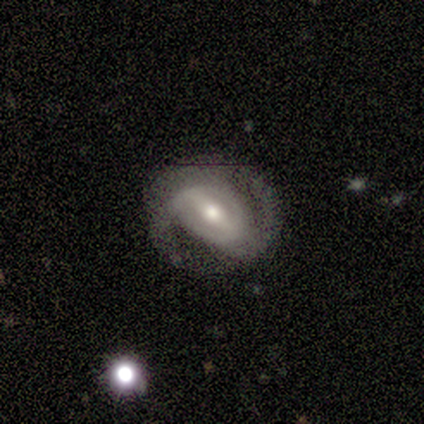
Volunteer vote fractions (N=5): A featured or disk galaxy (100%) with a strong bar (100%), 2 (80%) medium (60%) spiral arms (100%) and a moderate central bulge (80%). Merging: none (60%).